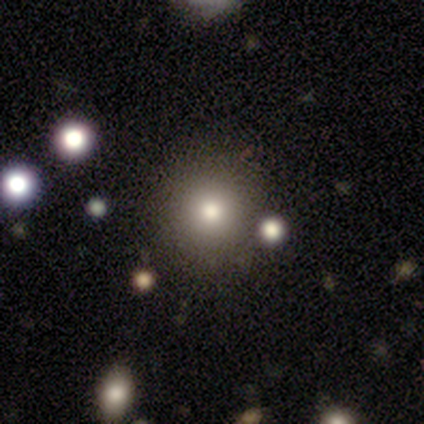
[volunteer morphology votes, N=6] Smooth or featured? 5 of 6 (83%) said smooth. How rounded? 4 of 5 (80%) said round. Merging? 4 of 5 (80%) said none.